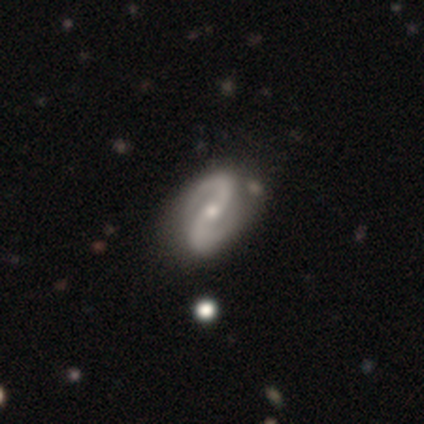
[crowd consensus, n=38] A featured or disk galaxy (97%) with no bar (47%), 2 (97%) medium (53%) spiral arms (100%) and a small central bulge (53%). Merging: none (54%).